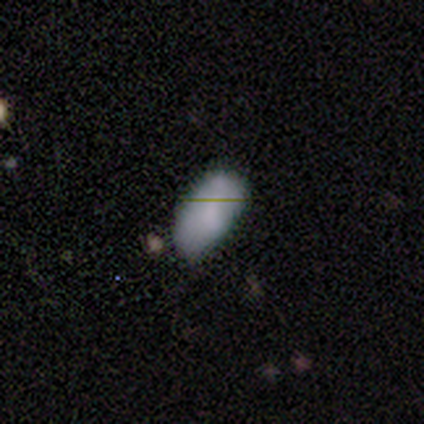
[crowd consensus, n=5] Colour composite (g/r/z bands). It shows a smooth galaxy with no disk features (80%) that is in between round and cigar-shaped (100%). Merging: none (100%).